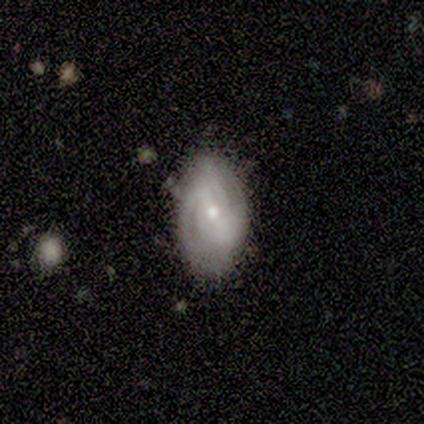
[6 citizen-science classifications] Smooth or featured? 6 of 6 (100%) said featured or disk. Edge-on disk? 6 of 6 (100%) said no. Bar? 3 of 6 (50%) said strong. Spiral arms? 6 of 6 (100%) said yes. Spiral winding? 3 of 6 (50%) said tight. Spiral arm count? 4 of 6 (67%) said 2. Bulge size? 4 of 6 (67%) said small. Merging? 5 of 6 (83%) said none.